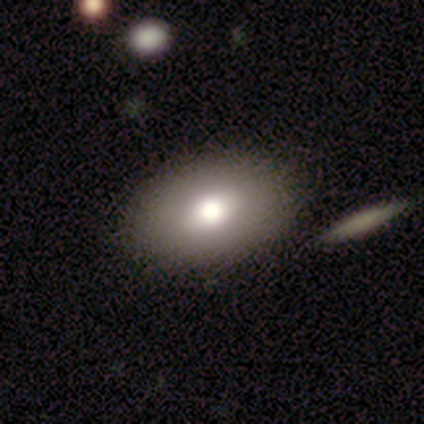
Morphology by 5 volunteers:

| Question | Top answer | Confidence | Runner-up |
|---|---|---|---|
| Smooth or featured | smooth | 80% | featured or disk (20%) |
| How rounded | in between | 75% | round (25%) |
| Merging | none | 80% | merger (20%) |